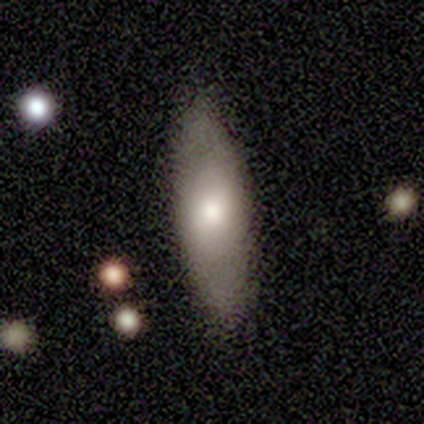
smooth-or-featured: smooth: 60% | featured or disk: 40% | star or artifact: 0%
  how-rounded: in between: 67% | cigar-shaped: 33% | round: 0%
  merging: none: 100% | minor disturbance: 0% | major disturbance: 0% | merger: 0%